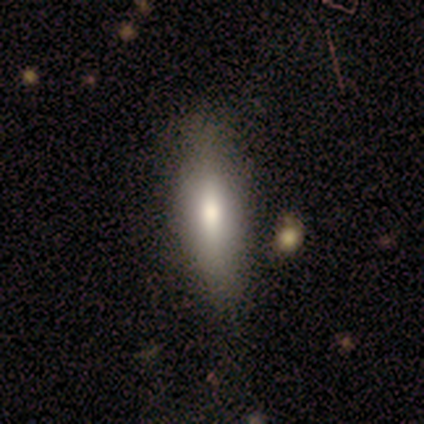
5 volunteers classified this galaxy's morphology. Smooth or featured? 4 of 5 (80%) said smooth. How rounded? 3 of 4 (75%) said cigar-shaped. Merging? 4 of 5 (80%) said none.